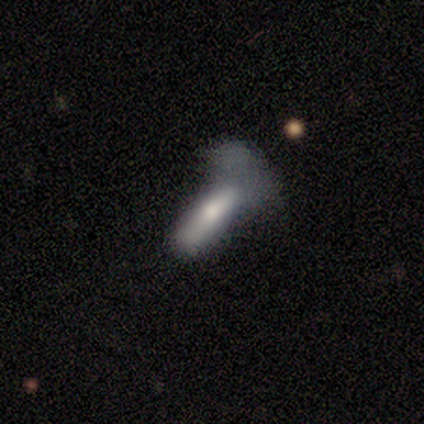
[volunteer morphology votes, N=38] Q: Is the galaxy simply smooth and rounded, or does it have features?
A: featured or disk — 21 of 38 (55%).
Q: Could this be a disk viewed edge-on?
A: yes — 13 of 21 (62%).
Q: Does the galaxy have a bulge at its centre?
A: rounded — 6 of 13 (46%).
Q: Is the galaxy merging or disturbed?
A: major disturbance — 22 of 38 (58%).